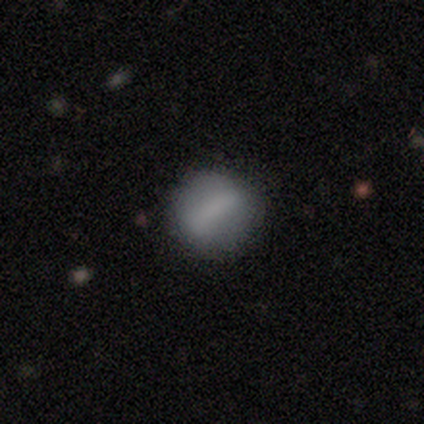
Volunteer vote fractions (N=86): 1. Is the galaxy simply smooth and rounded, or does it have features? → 73% smooth, 21% featured or disk, 6% star or artifact.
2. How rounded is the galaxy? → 79% round, 17% in between, 3% cigar-shaped.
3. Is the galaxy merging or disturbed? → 77% none, 19% minor disturbance, 5% major disturbance, 0% merger.